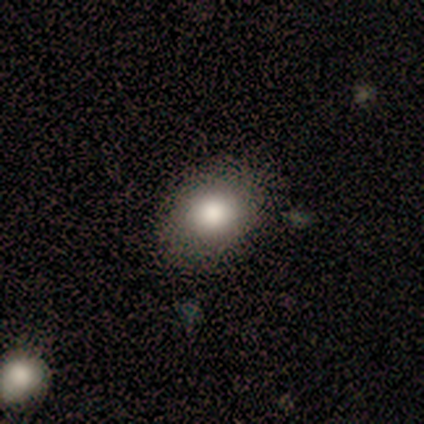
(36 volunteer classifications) Smooth or featured? smooth (86%)
How rounded? in between (58%)
Merging? none (88%)